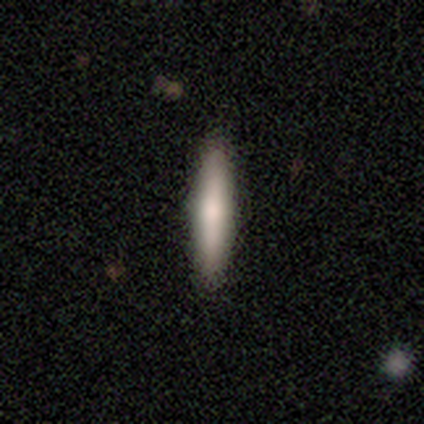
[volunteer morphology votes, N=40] Q: Smooth or featured?
A: smooth (62%); runner-up: featured or disk (35%)
Q: How rounded?
A: cigar-shaped (84%); runner-up: in between (16%)
Q: Merging?
A: none (92%); runner-up: minor disturbance (8%)